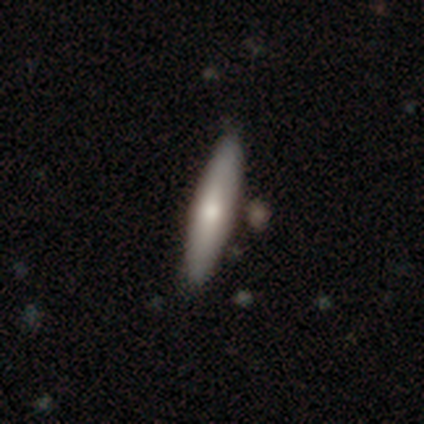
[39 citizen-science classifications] Morphology: type=smooth (72%); roundness=cigar-shaped (79%); merging=none (72%).